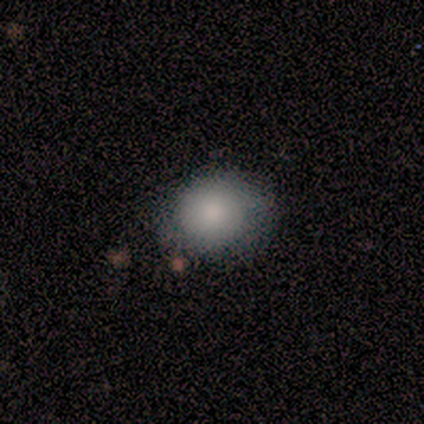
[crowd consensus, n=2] smooth 50% (tied), featured or disk 50% (tied), star or artifact 0%. Down the decision tree: how rounded — round (100%); merging — none (50%, tied with minor disturbance).